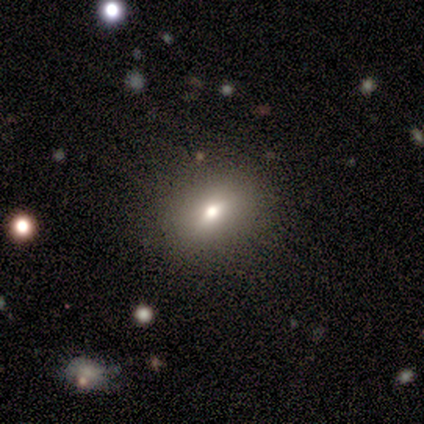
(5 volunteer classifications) This appears to be a smooth galaxy with no disk features (60%) that is round (67%). Merging: none (100%).